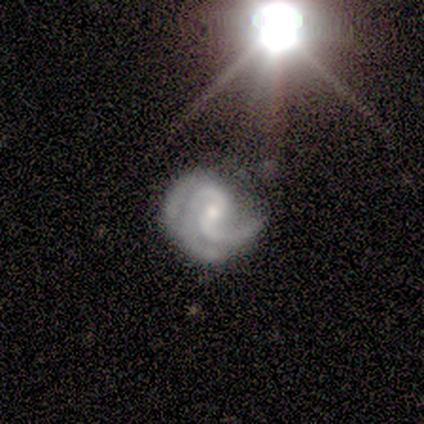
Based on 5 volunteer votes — A featured or disk galaxy (100%) with no bar (60%), 3 (80%) tight (40%, tied with medium) spiral arms (100%) and a small central bulge (60%). Merging: none (80%).